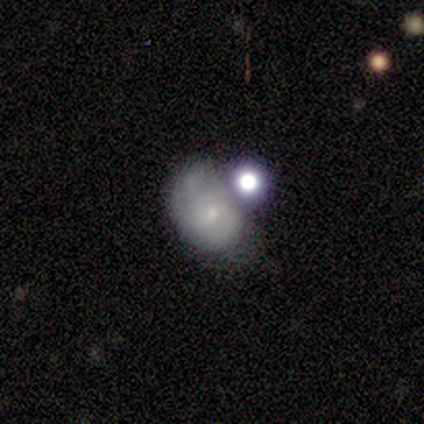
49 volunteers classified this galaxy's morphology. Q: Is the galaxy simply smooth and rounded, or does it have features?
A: featured or disk — 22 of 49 (45%).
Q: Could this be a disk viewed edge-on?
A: no — 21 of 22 (95%).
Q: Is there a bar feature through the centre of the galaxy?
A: no — 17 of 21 (81%).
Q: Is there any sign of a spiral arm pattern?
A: yes — 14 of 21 (67%).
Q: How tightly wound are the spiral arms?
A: tight — 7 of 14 (50%).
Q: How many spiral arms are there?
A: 2 — 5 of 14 (36%).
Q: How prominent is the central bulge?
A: small — 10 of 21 (48%).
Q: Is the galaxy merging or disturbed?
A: none — 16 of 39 (41%).